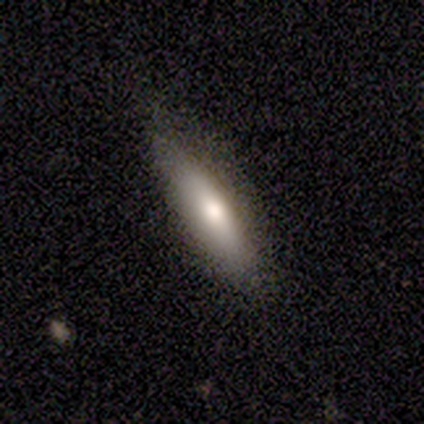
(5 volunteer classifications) smooth-or-featured: smooth: 60% | featured or disk: 20% | star or artifact: 20%
  how-rounded: cigar-shaped: 100% | round: 0% | in between: 0%
  merging: none: 100% | minor disturbance: 0% | major disturbance: 0% | merger: 0%